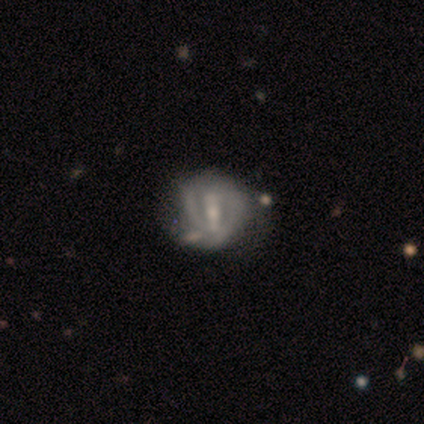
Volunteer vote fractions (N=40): Smooth or featured? 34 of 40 (85%) said featured or disk. Edge-on disk? 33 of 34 (97%) said no. Bar? 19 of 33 (58%) said strong. Spiral arms? 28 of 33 (85%) said yes. Spiral winding? 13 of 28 (46%) said tight. Spiral arm count? 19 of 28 (68%) said 2. Bulge size? 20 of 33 (61%) said small. Merging? 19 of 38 (50%) said none.